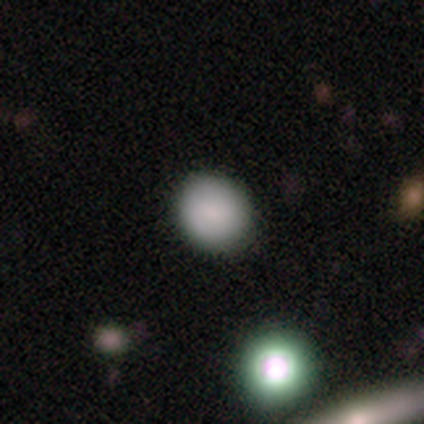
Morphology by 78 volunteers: Q: Smooth or featured?
A: smooth (79%); runner-up: star or artifact (13%)
Q: How rounded?
A: round (90%); runner-up: in between (10%)
Q: Merging?
A: none (41%); runner-up: minor disturbance (6%)